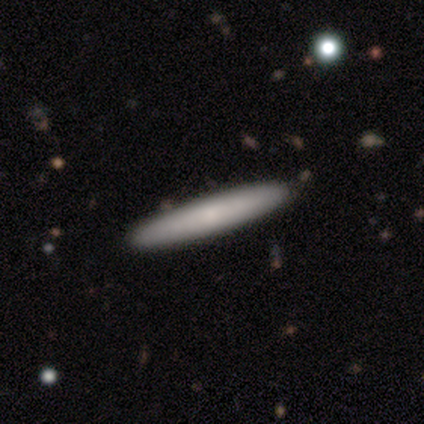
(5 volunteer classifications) Smooth or featured?
  - featured or disk: 60% *
  - smooth: 40%
  - star or artifact: 0%
Edge-on disk?
  - yes: 67% *
  - no: 33%
Edge-on bulge?
  - rounded: 100% *
  - boxy: 0%
  - none: 0%
Merging?
  - none: 60% *
  - minor disturbance: 40%
  - major disturbance: 0%
  - merger: 0%